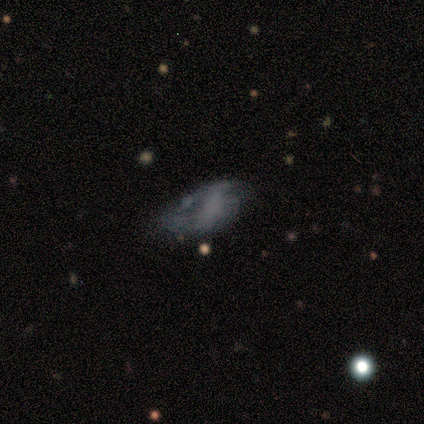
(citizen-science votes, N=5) featured or disk 60%, smooth 20%, star or artifact 20%. Down the decision tree: edge-on disk — no (100%); bar — strong (33%, tied with weak and no); spiral arms — yes (67%); spiral arm count — 2 (50%, tied with can't tell); spiral winding — tight (50%, tied with medium); bulge size — none (67%); merging — none (50%).